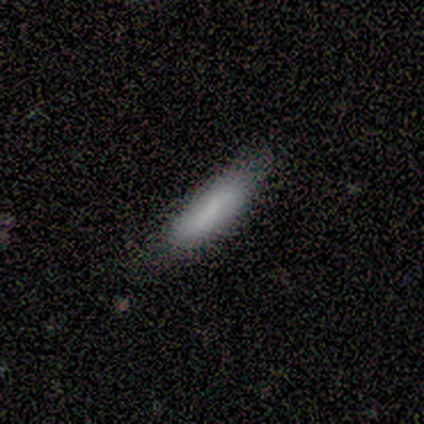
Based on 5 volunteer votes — smooth-or-featured: smooth: 100% | featured or disk: 0% | star or artifact: 0%
  how-rounded: cigar-shaped: 80% | in between: 20% | round: 0%
  merging: none: 80% | minor disturbance: 20% | major disturbance: 0% | merger: 0%